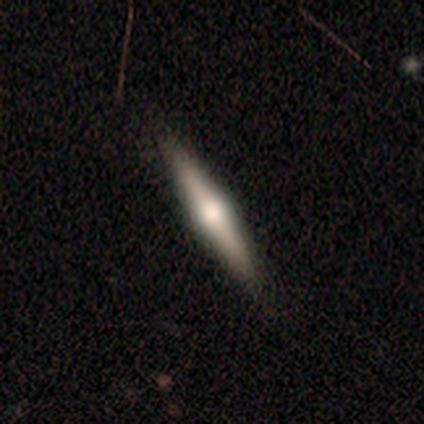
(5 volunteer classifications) featured or disk 80%, smooth 20%, star or artifact 0%. Down the decision tree: edge-on disk — yes (100%); edge-on bulge — rounded (100%); merging — none (80%).